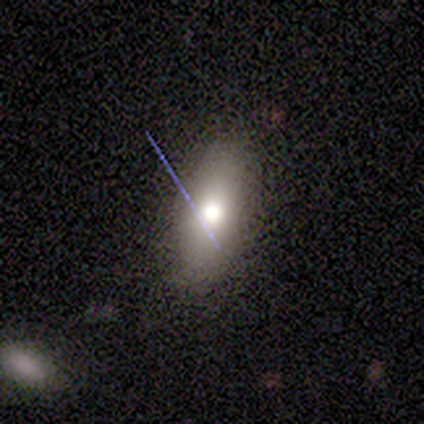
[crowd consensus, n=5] smooth-or-featured: smooth: 60% | star or artifact: 40% | featured or disk: 0%
  how-rounded: round: 33% (tied) | in between: 33% (tied) | cigar-shaped: 33% (tied)
  merging: none: 67% | minor disturbance: 33% | major disturbance: 0% | merger: 0%